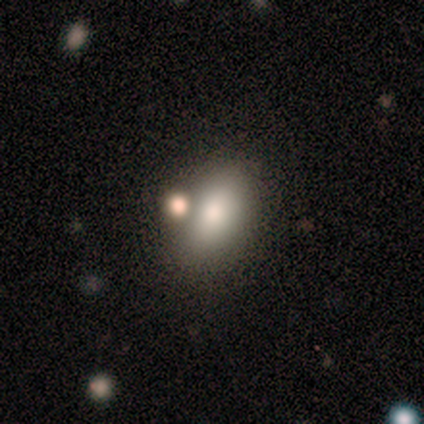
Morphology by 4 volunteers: smooth_or_featured: smooth (p=0.75) [alt: star or artifact p=0.25]
how_rounded: in between (p=1.00)
merging: none (p=1.00)